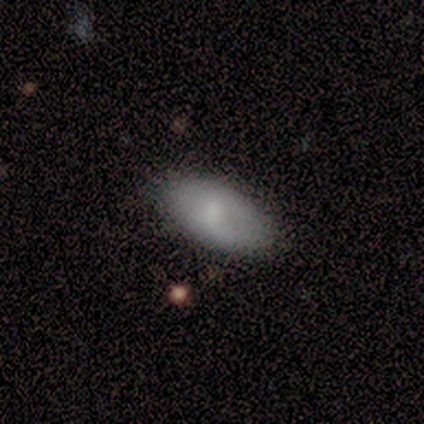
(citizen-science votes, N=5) Smooth or featured? 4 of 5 (80%) said smooth. How rounded? 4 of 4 (100%) said in between. Merging? 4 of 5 (80%) said none.